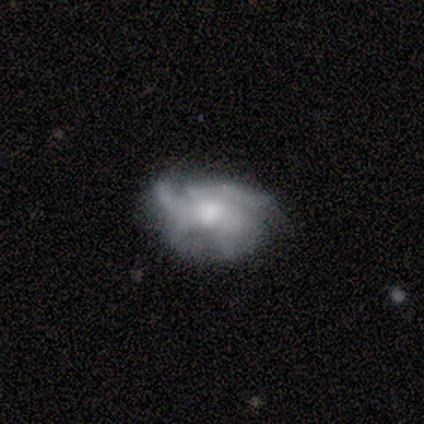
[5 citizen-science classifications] Smooth or featured? featured or disk (80%)
Edge-on disk? no (100%)
Bar? no (100%)
Spiral arms? yes (75%)
Spiral winding? loose (67%)
Spiral arm count? 1 (33%, tied with 2 and 3)
Bulge size? small (50%)
Merging? none (60%)